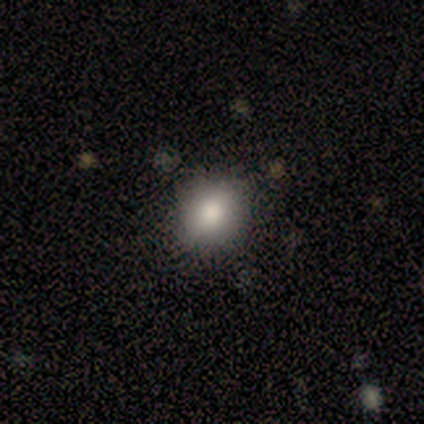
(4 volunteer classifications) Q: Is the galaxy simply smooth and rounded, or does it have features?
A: smooth — 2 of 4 (50%).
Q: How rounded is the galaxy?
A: round — 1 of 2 (50%, tied with in between).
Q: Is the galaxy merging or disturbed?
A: minor disturbance — 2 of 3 (67%).